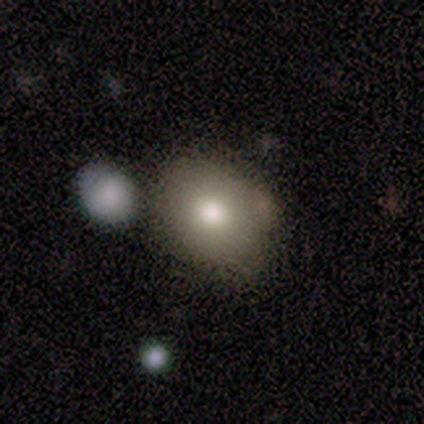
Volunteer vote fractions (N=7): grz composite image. It shows a smooth galaxy with no disk features (100%) that is round (57%). Merging: none (57%).